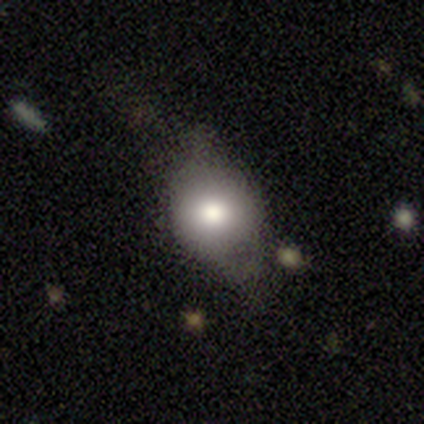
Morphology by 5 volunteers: This is marginally a smooth galaxy (40%, tied with featured or disk). How rounded: possibly round (50%, tied with in between). Merging: likely none (75%).